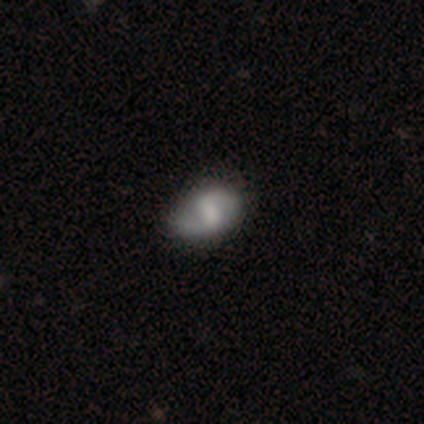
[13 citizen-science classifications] Smooth or featured? 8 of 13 (62%) said featured or disk. Edge-on disk? 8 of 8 (100%) said no. Bar? 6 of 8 (75%) said weak. Spiral arms? 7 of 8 (88%) said yes. Spiral winding? 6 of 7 (86%) said loose. Spiral arm count? 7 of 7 (100%) said 2. Bulge size? 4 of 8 (50%) said small. Merging? 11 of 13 (85%) said none.